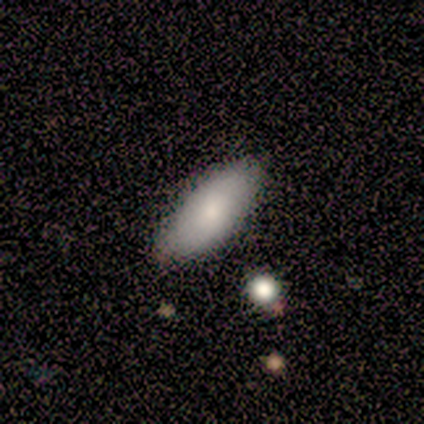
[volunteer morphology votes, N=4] Volunteers were most divided on "smooth or featured": smooth: 75%, featured or disk: 25%, star or artifact: 0%. More confident: how rounded — in between (100%); merging — none (100%).